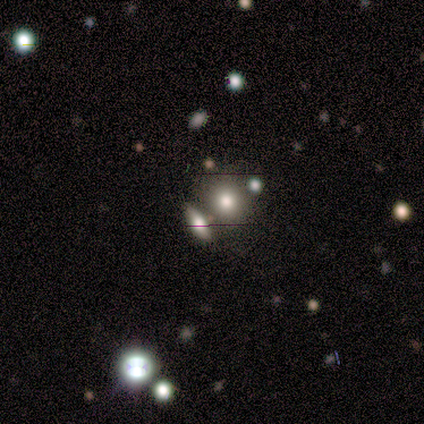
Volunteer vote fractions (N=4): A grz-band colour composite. It shows a smooth galaxy with no disk features (100%) that is round (50%, tied with in between). Merging: none (50%).